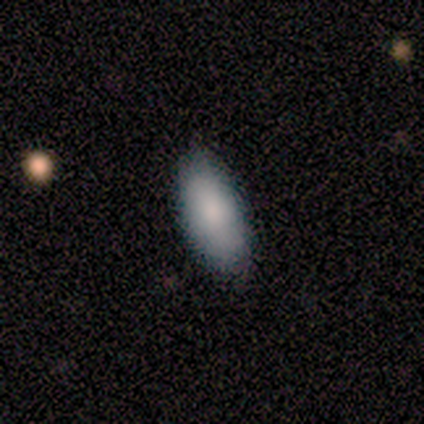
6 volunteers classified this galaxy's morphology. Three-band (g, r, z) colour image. It shows a smooth galaxy with no disk features (67%) that is in between round and cigar-shaped (100%). Merging: none (100%).